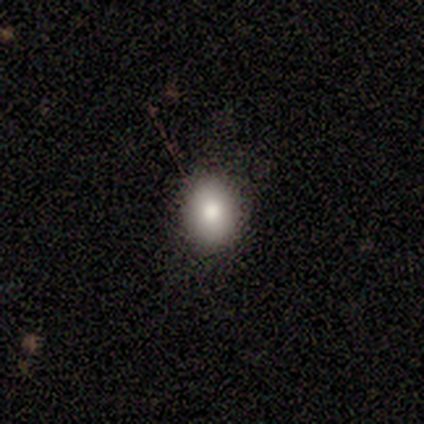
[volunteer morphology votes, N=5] A smooth galaxy with no disk features (100%) that is round (60%).

Vote fractions:
- Smooth or featured? smooth: 100% / featured or disk: 0% / star or artifact: 0%
- How rounded? round: 60% / in between: 40% / cigar-shaped: 0%
- Merging? none: 80% / minor disturbance: 20% / major disturbance: 0% / merger: 0%